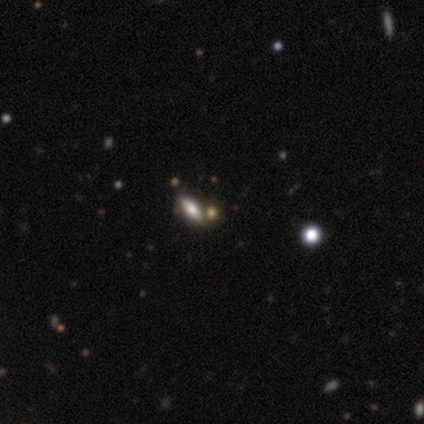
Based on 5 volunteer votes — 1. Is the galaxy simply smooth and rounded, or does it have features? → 40% smooth (tied), 40% star or artifact (tied), 20% featured or disk.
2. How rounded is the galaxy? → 50% in between (tied), 50% cigar-shaped (tied), 0% round.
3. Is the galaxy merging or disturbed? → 67% none, 33% merger, 0% minor disturbance, 0% major disturbance.